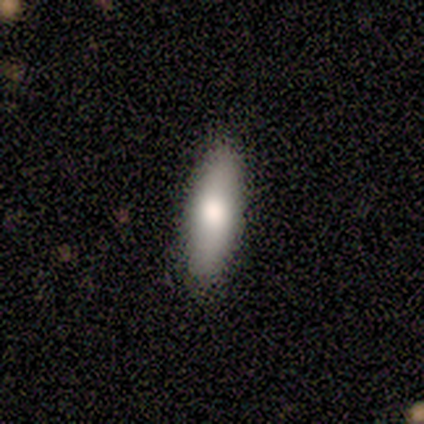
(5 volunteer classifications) smooth_or_featured: smooth (p=0.80) [alt: featured or disk p=0.20]
how_rounded: cigar-shaped (p=0.75) [alt: in between p=0.25]
merging: none (p=0.80) [alt: minor disturbance p=0.20]